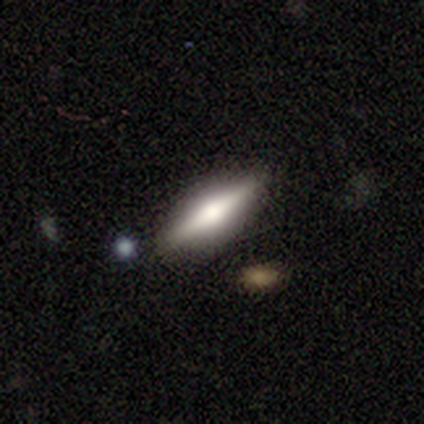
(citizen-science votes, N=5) smooth 60%, featured or disk 40%, star or artifact 0%. Down the decision tree: how rounded — cigar-shaped (100%); merging — none (100%).